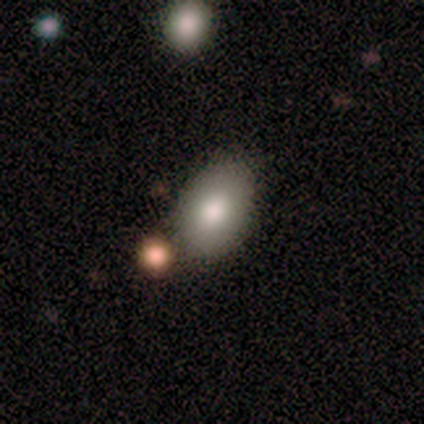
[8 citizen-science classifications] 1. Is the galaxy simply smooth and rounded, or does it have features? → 75% smooth, 12% featured or disk, 12% star or artifact.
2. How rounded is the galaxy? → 100% in between, 0% round, 0% cigar-shaped.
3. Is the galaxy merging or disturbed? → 71% none, 29% minor disturbance, 0% major disturbance, 0% merger.